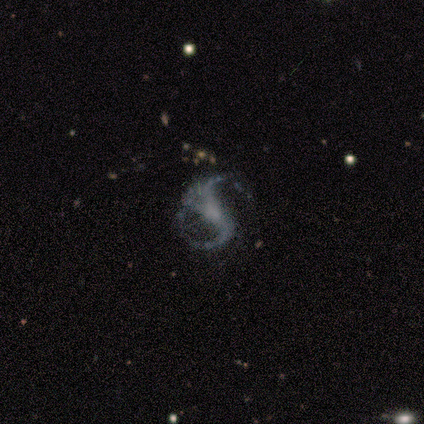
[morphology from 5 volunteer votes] Smooth or featured?
  - featured or disk: 100% *
  - smooth: 0%
  - star or artifact: 0%
Edge-on disk?
  - no: 100% *
  - yes: 0%
Bar?
  - strong: 40% * (tied)
  - no: 40% * (tied)
  - weak: 20%
Spiral arms?
  - yes: 100% *
  - no: 0%
Spiral winding?
  - loose: 60% *
  - medium: 40%
  - tight: 0%
Spiral arm count?
  - 2: 100% *
  - 1: 0%
  - 3: 0%
  - 4: 0%
  - more than 4: 0%
  - can't tell: 0%
Bulge size?
  - none: 80% *
  - small: 20%
  - dominant: 0%
  - large: 0%
  - moderate: 0%
Merging?
  - none: 80% *
  - minor disturbance: 20%
  - major disturbance: 0%
  - merger: 0%